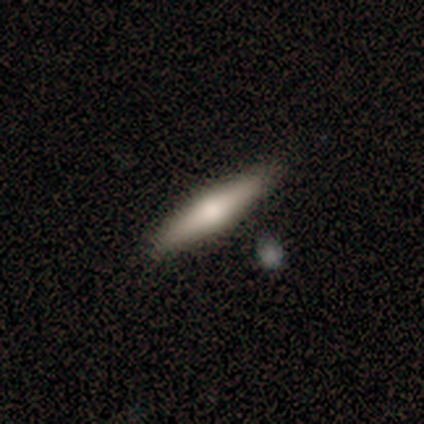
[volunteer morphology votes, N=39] Q: Smooth or featured?
A: smooth (51%); runner-up: featured or disk (44%)
Q: How rounded?
A: cigar-shaped (80%); runner-up: in between (15%)
Q: Merging?
A: none (81%); runner-up: minor disturbance (16%)